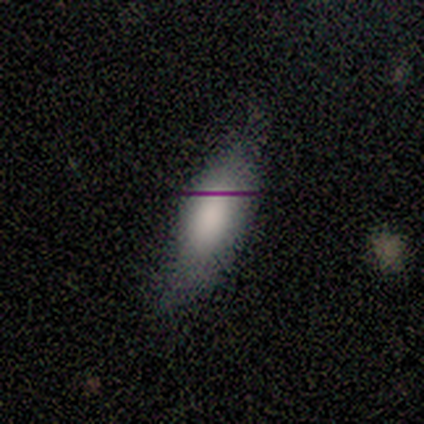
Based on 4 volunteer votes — Smooth or featured: smooth — 75% (star or artifact — 25%)
How rounded: in between — 100%
Merging: none — 67% (minor disturbance — 33%)